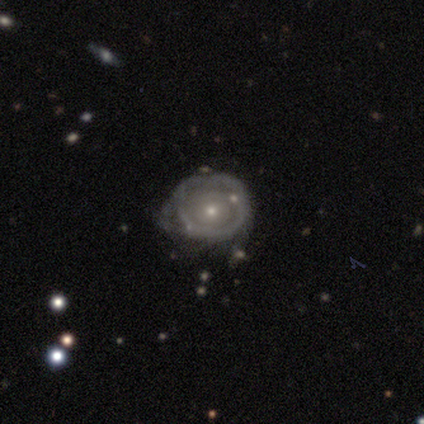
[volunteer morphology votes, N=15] A featured or disk galaxy (80%) with no bar (100%), no spiral arms (58%) and a small central bulge (83%). Merging: minor disturbance (53%).